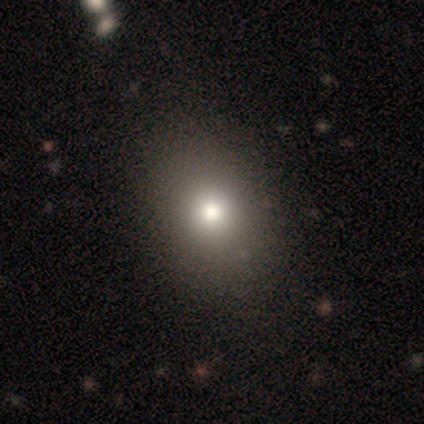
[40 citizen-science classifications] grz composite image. It shows a smooth galaxy with no disk features (88%) that is in between round and cigar-shaped (57%). Merging: none (61%).